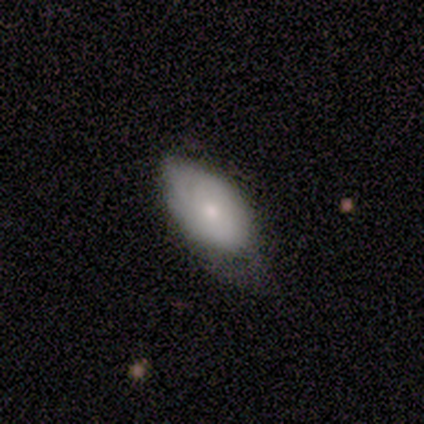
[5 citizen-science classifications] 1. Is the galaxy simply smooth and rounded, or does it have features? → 80% featured or disk, 20% smooth, 0% star or artifact.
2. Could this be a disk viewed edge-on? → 75% yes, 25% no.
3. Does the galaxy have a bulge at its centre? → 67% none, 33% rounded, 0% boxy.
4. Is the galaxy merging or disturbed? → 60% none, 20% minor disturbance, 20% major disturbance, 0% merger.